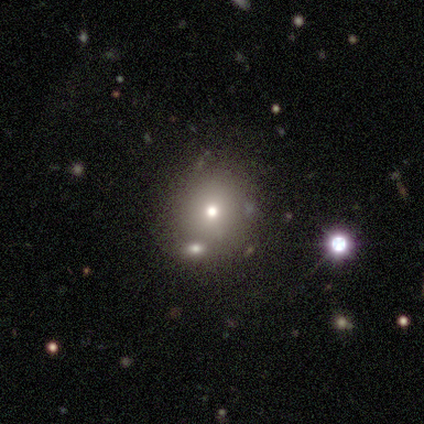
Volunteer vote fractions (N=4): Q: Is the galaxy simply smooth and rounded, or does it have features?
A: smooth — 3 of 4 (75%).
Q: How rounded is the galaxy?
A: round — 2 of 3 (67%).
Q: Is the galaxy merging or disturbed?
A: none — 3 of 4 (75%).